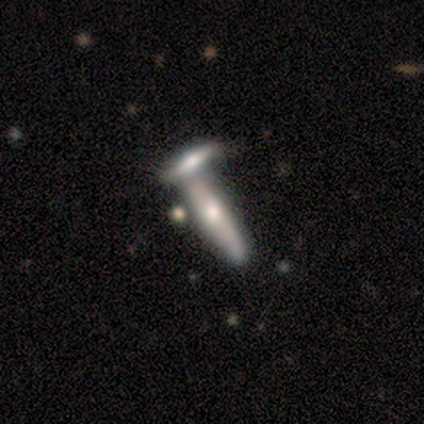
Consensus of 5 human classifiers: smooth_or_featured: smooth (p=0.60) [alt: featured or disk p=0.40]
how_rounded: cigar-shaped (p=1.00)
merging: merger (p=0.60) [alt: none p=0.40]